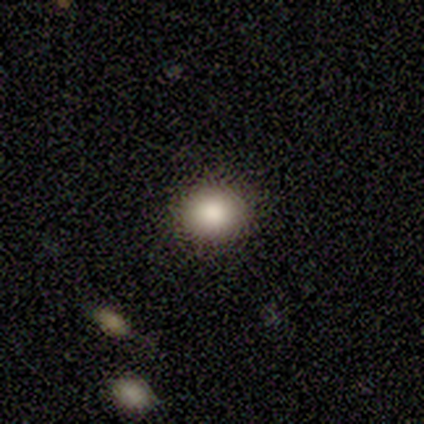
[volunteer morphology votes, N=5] Q: Smooth or featured?
A: smooth (100%)
Q: How rounded?
A: round (80%); runner-up: in between (20%)
Q: Merging?
A: none (100%)